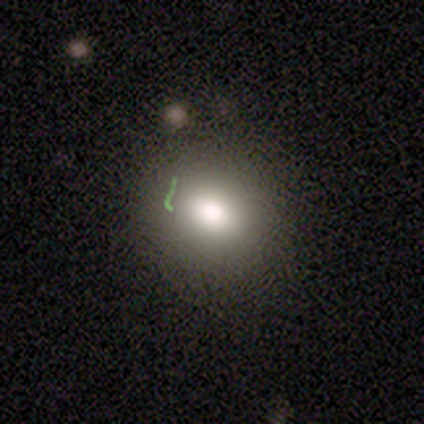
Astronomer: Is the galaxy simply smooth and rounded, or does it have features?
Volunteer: smooth — 80%.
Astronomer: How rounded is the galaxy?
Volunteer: round — 75%.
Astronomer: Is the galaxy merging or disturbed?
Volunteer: none — 91%.